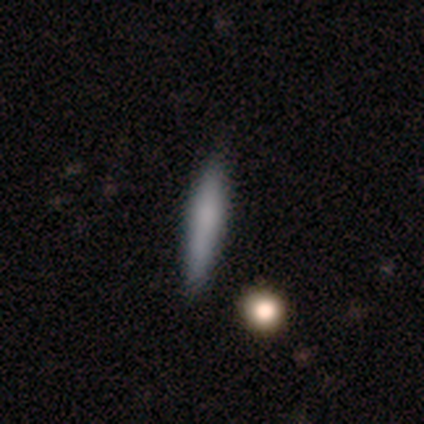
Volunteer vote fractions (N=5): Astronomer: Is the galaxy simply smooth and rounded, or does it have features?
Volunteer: featured or disk — 80%.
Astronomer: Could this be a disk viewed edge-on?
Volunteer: yes — 100%.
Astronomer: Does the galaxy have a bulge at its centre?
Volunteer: none — 50%.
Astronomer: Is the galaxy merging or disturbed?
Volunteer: none — 100%.